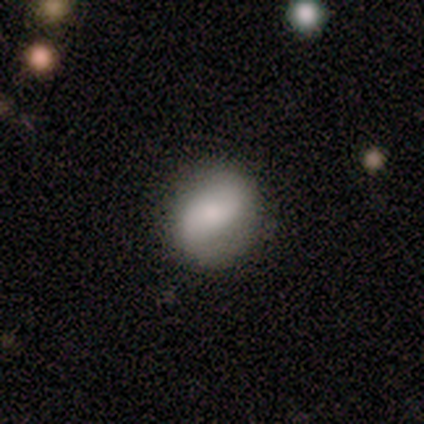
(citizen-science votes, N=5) Volunteers were most divided on "how rounded": in between: 67%, cigar-shaped: 33%, round: 0%. More confident: merging — none (75%); smooth or featured — smooth (60%).